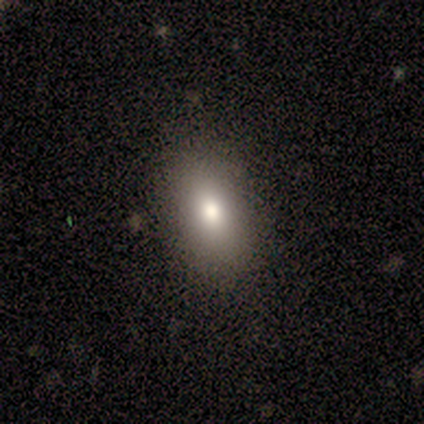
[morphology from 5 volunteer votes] Smooth or featured? smooth (80%)
How rounded? in between (100%)
Merging? none (75%)